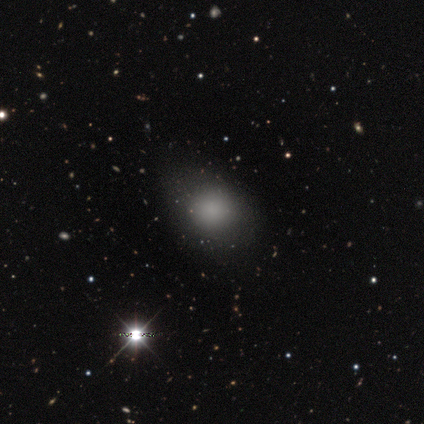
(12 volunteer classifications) A smooth galaxy with no disk features (58%) that is round (71%).

Vote fractions:
- Smooth or featured? smooth: 58% / star or artifact: 42% / featured or disk: 0%
- How rounded? round: 71% / in between: 29% / cigar-shaped: 0%
- Merging? none: 71% / minor disturbance: 29% / major disturbance: 0% / merger: 0%